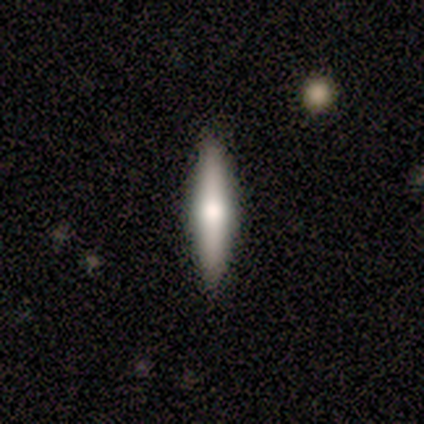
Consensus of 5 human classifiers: This is clearly a smooth galaxy (80%). How rounded: clearly cigar-shaped (100%). Merging: clearly none (100%).